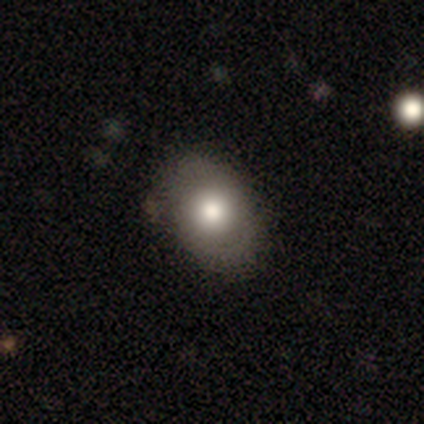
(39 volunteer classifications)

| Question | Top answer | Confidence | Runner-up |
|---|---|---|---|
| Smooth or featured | smooth | 77% | featured or disk (21%) |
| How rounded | in between | 83% | round (17%) |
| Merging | none | 39% | major disturbance (8%) |